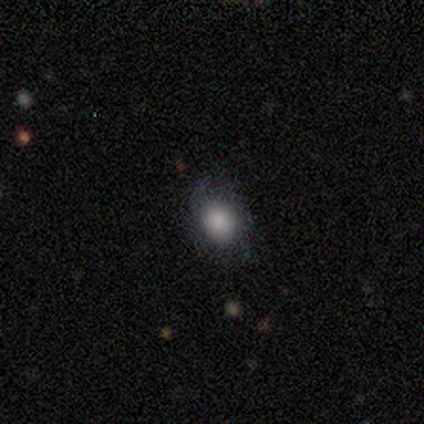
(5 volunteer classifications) smooth 80%, star or artifact 20%, featured or disk 0%. Down the decision tree: how rounded — in between (75%); merging — none (50%).